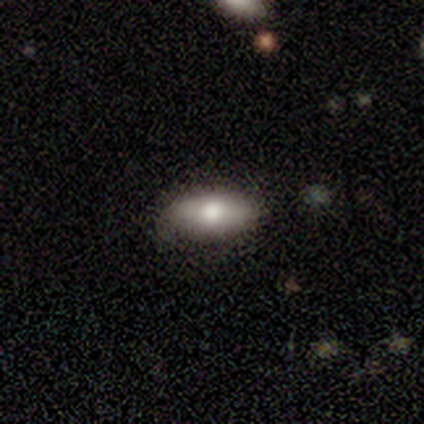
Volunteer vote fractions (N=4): smooth 75%, featured or disk 25%, star or artifact 0%. Down the decision tree: how rounded — in between (100%); merging — none (75%).